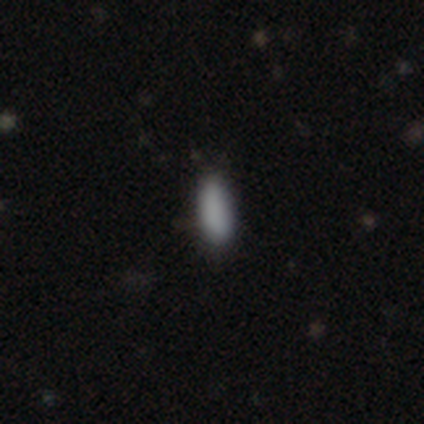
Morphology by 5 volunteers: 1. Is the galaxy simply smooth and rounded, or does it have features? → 80% smooth, 20% star or artifact, 0% featured or disk.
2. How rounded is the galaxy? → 75% in between, 25% cigar-shaped, 0% round.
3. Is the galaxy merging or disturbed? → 50% none (tied), 50% minor disturbance (tied), 0% major disturbance, 0% merger.